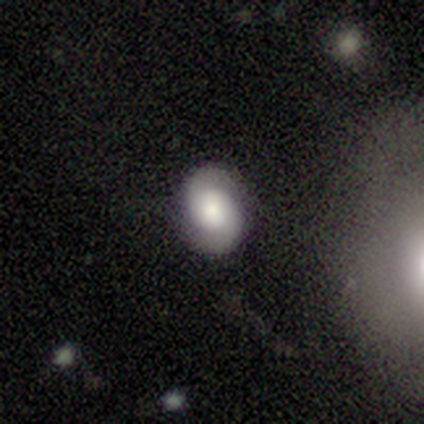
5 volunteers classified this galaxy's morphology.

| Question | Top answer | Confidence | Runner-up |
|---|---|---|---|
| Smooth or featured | featured or disk | 80% | smooth (20%) |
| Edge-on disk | no | 100% | — |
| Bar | weak | 50% | tied: no (50%) |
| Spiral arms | yes | 100% | — |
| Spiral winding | loose | 75% | tight (25%) |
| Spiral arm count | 2 | 100% | — |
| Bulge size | large | 50% | tied: moderate (50%) |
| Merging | none | 100% | — |